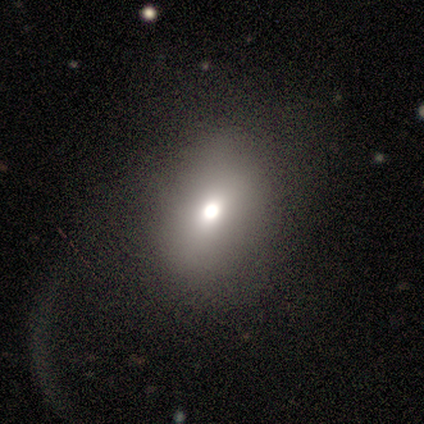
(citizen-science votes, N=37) Smooth or featured: smooth — 76% (featured or disk — 14%)
How rounded: in between — 64% (round — 36%)
Merging: none — 45% (major disturbance — 36%)